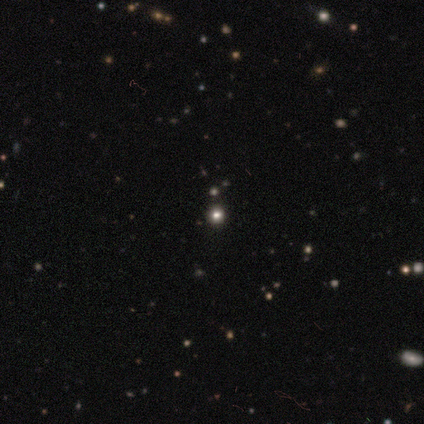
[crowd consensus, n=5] A smooth galaxy with no disk features (40%, tied with featured or disk) that is round (100%). Merging: none (50%, tied with minor disturbance).